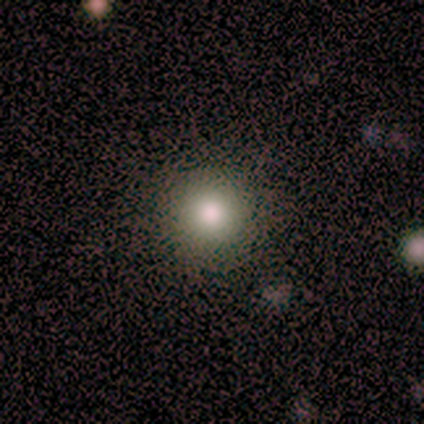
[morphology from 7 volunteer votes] Smooth or featured: smooth — 86% (star or artifact — 14%)
How rounded: round — 100%
Merging: none — 100%